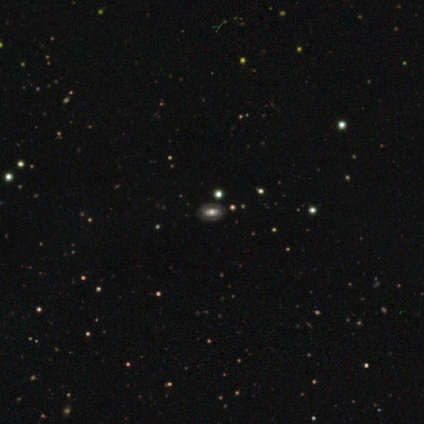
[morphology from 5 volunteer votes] Smooth or featured?
  - featured or disk: 60% *
  - smooth: 40%
  - star or artifact: 0%
Edge-on disk?
  - no: 100% *
  - yes: 0%
Bar?
  - no: 67% *
  - strong: 33%
  - weak: 0%
Spiral arms?
  - yes: 67% *
  - no: 33%
Spiral winding?
  - tight: 100% *
  - medium: 0%
  - loose: 0%
Spiral arm count?
  - 2: 50% * (tied)
  - can't tell: 50% * (tied)
  - 1: 0%
  - 3: 0%
  - 4: 0%
  - more than 4: 0%
Bulge size?
  - moderate: 67% *
  - large: 33%
  - dominant: 0%
  - small: 0%
  - none: 0%
Merging?
  - none: 80% *
  - merger: 20%
  - minor disturbance: 0%
  - major disturbance: 0%